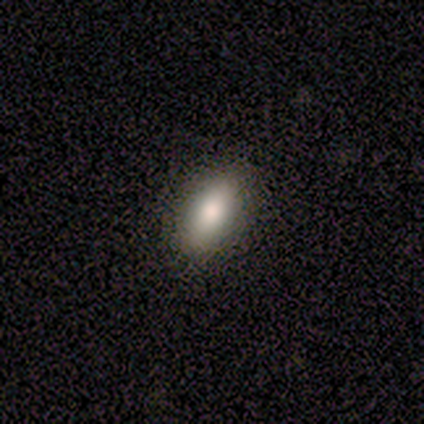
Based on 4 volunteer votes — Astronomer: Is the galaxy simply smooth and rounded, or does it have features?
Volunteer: smooth — 75%.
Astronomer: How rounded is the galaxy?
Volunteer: in between — 67%.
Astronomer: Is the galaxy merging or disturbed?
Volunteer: none — 100%.